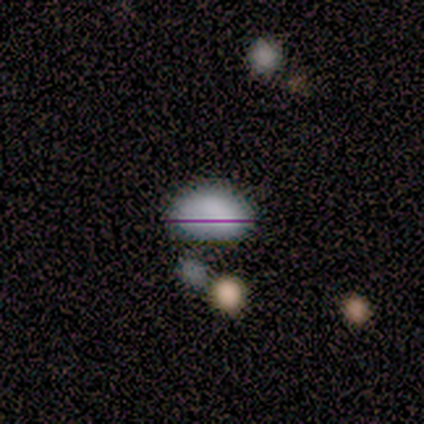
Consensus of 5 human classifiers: This is clearly a smooth galaxy (80%). How rounded: clearly in between (100%). Merging: likely none (75%).